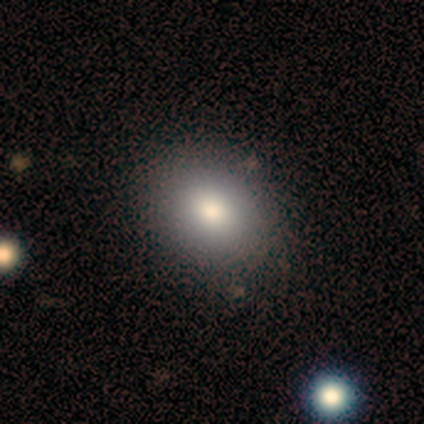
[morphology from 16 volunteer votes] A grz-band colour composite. It shows a smooth galaxy with no disk features (81%) that is in between round and cigar-shaped (77%). Merging: none (79%).